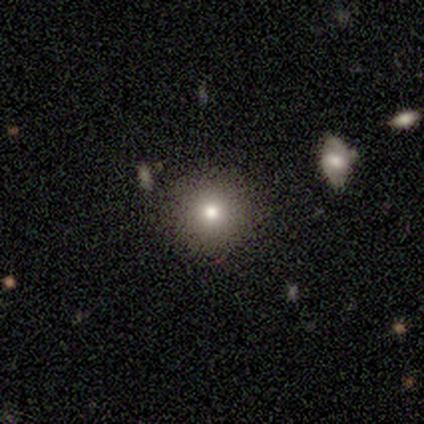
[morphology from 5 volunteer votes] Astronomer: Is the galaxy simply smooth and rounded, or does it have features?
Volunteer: smooth — 40%, tied with star or artifact at 40%.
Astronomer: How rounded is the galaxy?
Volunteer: round — 100%.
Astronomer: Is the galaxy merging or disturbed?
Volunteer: none — 67%.